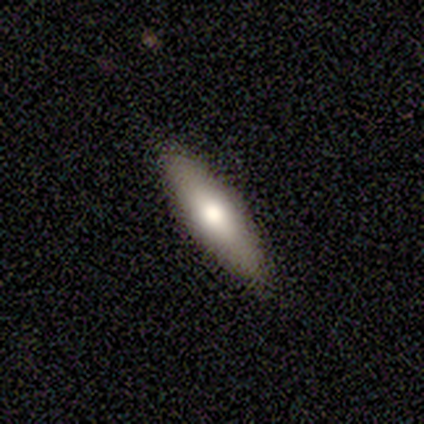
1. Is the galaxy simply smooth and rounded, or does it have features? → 67% smooth, 22% featured or disk, 11% star or artifact.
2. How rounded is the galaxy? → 50% in between (tied), 50% cigar-shaped (tied), 0% round.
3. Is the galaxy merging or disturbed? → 100% none, 0% minor disturbance, 0% major disturbance, 0% merger.